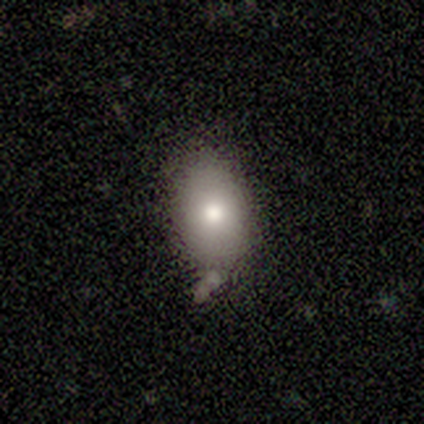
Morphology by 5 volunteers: Smooth or featured?
  - smooth: 100% *
  - featured or disk: 0%
  - star or artifact: 0%
How rounded?
  - in between: 60% *
  - round: 40%
  - cigar-shaped: 0%
Merging?
  - none: 60% *
  - minor disturbance: 40%
  - major disturbance: 0%
  - merger: 0%